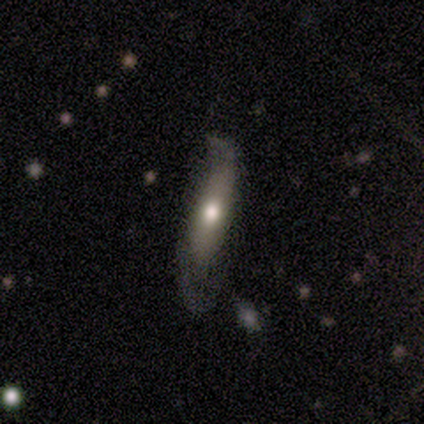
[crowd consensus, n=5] A featured or disk galaxy (60%) with no bar (100%), 1 (50%, tied with 2) medium (100%) spiral arms (100%) and a moderate central bulge (100%).

Vote fractions:
- Smooth or featured? featured or disk: 60% / smooth: 40% / star or artifact: 0%
- Edge-on disk? no: 67% / yes: 33%
- Bar? no: 100% / strong: 0% / weak: 0%
- Spiral arms? yes: 100% / no: 0%
- Spiral winding? medium: 100% / tight: 0% / loose: 0%
- Spiral arm count? 1: 50% (tied) / 2: 50% (tied) / 3: 0% / 4: 0% / more than 4: 0% / can't tell: 0%
- Bulge size? moderate: 100% / dominant: 0% / large: 0% / small: 0% / none: 0%
- Merging? minor disturbance: 40% (tied) / major disturbance: 40% (tied) / none: 20% / merger: 0%